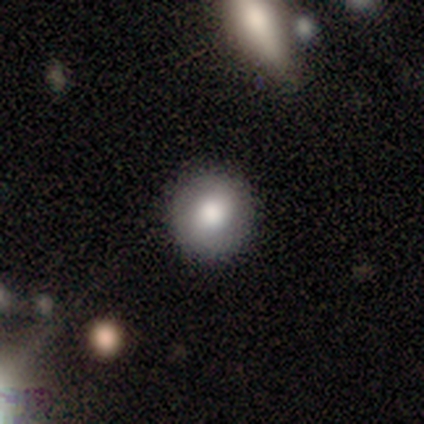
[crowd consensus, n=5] Volunteers were most divided on "smooth or featured": smooth: 80%, featured or disk: 20%, star or artifact: 0%. More confident: how rounded — round (100%); merging — none (80%).